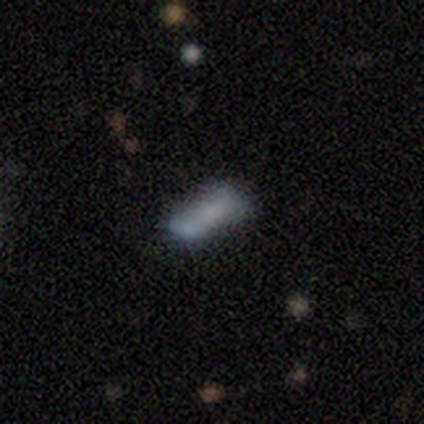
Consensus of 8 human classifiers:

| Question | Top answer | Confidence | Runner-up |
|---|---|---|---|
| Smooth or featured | smooth | 75% | featured or disk (25%) |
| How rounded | in between | 83% | cigar-shaped (17%) |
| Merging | none | 38% | minor disturbance (25%) |